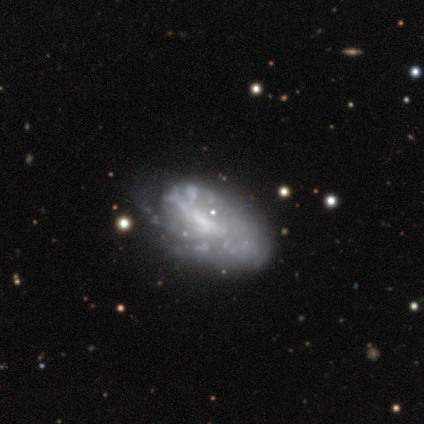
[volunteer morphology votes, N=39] Smooth or featured?
  - featured or disk: 77% *
  - smooth: 21%
  - star or artifact: 3%
Edge-on disk?
  - no: 97% *
  - yes: 3%
Bar?
  - no: 48% *
  - weak: 31%
  - strong: 21%
Spiral arms?
  - no: 55% *
  - yes: 45%
Bulge size?
  - small: 48% *
  - none: 45%
  - moderate: 7%
  - dominant: 0%
  - large: 0%
Merging?
  - none: 32% *
  - minor disturbance: 29%
  - major disturbance: 8%
  - merger: 0%